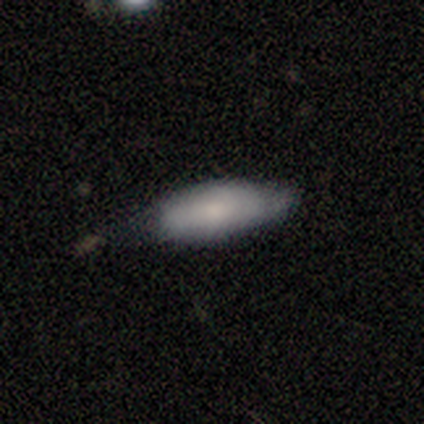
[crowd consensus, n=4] Smooth or featured? 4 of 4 (100%) said smooth. How rounded? 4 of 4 (100%) said in between. Merging? 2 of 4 (50%, tied with minor disturbance) said none.